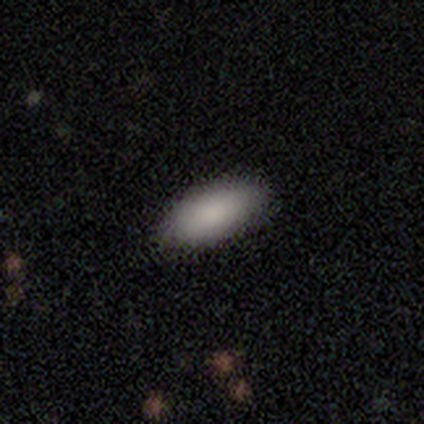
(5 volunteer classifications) Q: Smooth or featured?
A: smooth (100%)
Q: How rounded?
A: in between (60%); runner-up: cigar-shaped (40%)
Q: Merging?
A: none (100%)